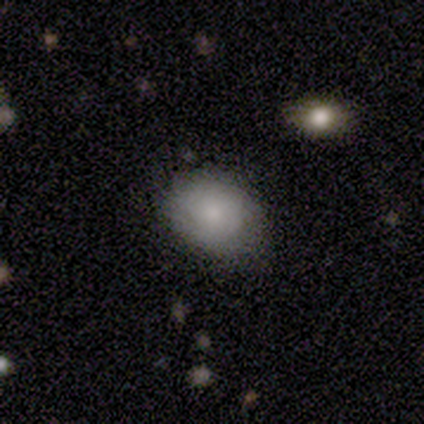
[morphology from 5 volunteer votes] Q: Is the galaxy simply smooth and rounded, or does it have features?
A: smooth — 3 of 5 (60%).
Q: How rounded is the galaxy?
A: round — 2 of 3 (67%).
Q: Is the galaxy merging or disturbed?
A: none — 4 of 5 (80%).